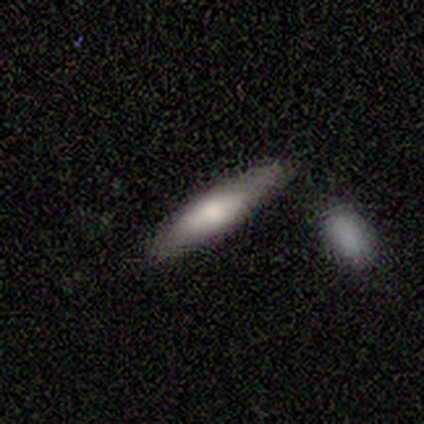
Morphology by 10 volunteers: Smooth or featured: smooth — 80% (featured or disk — 20%)
How rounded: cigar-shaped — 75% (in between — 25%)
Merging: none — 100%